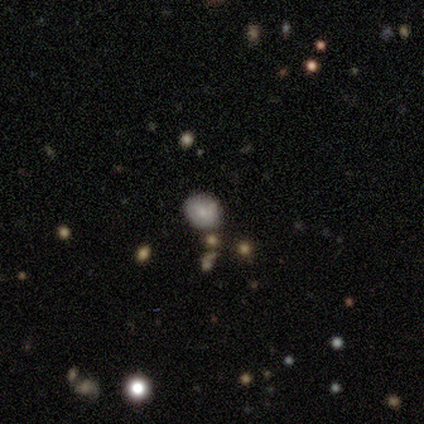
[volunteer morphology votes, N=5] Smooth or featured: smooth — 100%
How rounded: round — 80% (in between — 20%)
Merging: none — 80% (minor disturbance — 20%)